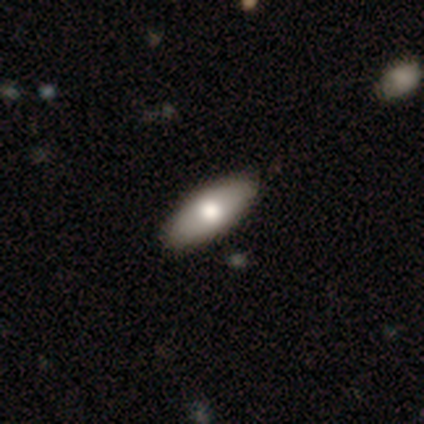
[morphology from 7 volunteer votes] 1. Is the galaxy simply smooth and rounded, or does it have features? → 57% smooth, 43% featured or disk, 0% star or artifact.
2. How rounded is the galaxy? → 75% in between, 25% cigar-shaped, 0% round.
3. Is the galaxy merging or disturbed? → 100% none, 0% minor disturbance, 0% major disturbance, 0% merger.